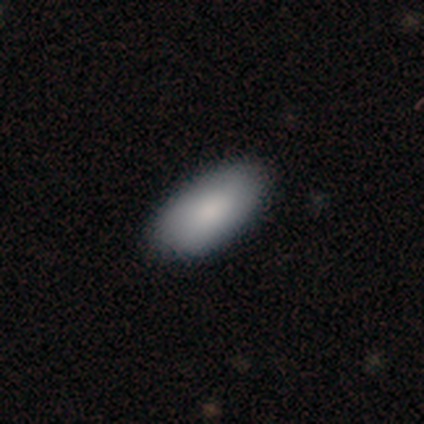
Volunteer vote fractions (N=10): A smooth galaxy with no disk features (80%) that is in between round and cigar-shaped (88%). Merging: none (80%).